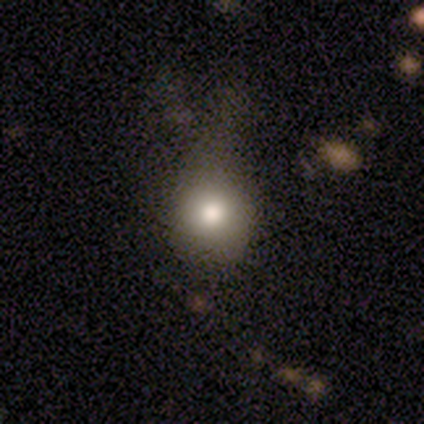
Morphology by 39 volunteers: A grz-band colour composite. It shows a smooth galaxy with no disk features (69%) that is round (93%). Merging: none (30%, tied with minor disturbance).